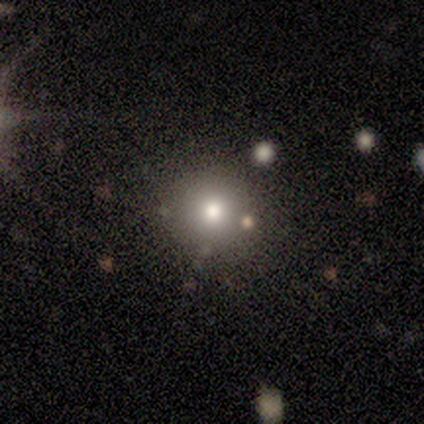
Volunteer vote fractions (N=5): smooth-or-featured: smooth: 60% | star or artifact: 40% | featured or disk: 0%
  how-rounded: round: 100% | in between: 0% | cigar-shaped: 0%
  merging: none: 100% | minor disturbance: 0% | major disturbance: 0% | merger: 0%